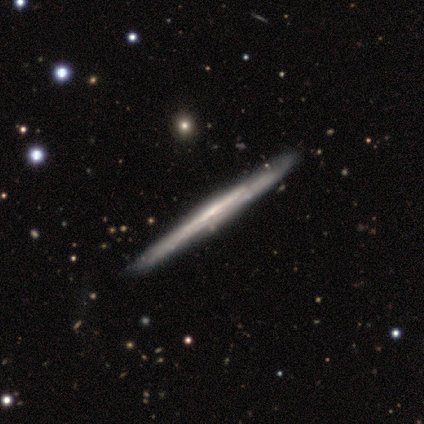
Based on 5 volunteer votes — Smooth or featured? 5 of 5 (100%) said featured or disk. Edge-on disk? 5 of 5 (100%) said yes. Edge-on bulge? 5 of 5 (100%) said none. Merging? 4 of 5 (80%) said none.